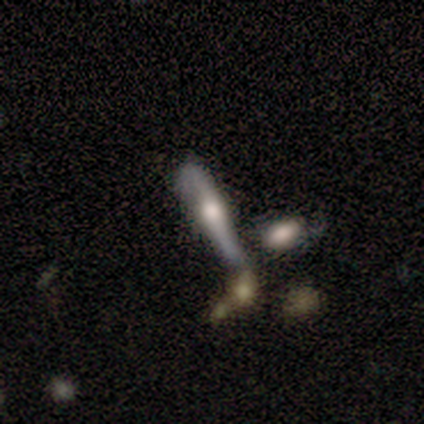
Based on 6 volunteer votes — Morphology: type=smooth (50%, tied with featured or disk); roundness=cigar-shaped (100%); merging=none (33%, tied with merger).